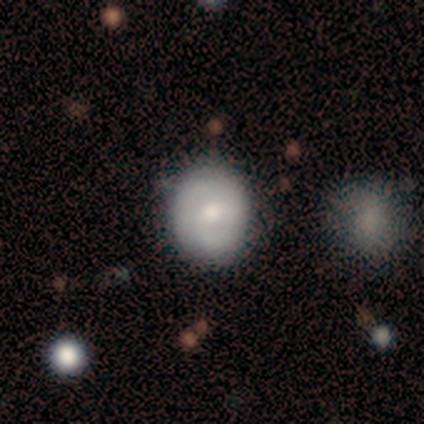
smooth_or_featured: smooth (p=0.49) [alt: featured or disk p=0.44]
how_rounded: round (p=0.85) [alt: in between p=0.15]
merging: none (p=0.68) [alt: minor disturbance p=0.29]